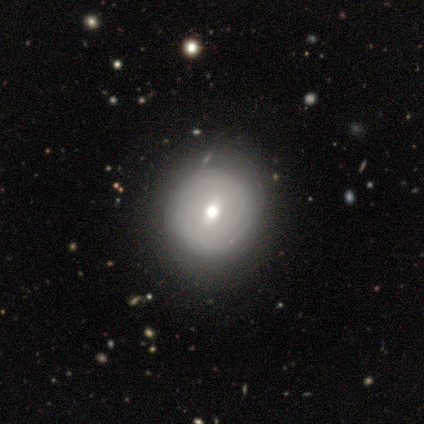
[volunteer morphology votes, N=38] This is possibly a featured or disk galaxy (58%). It is clearly not viewed edge-on (95%). Bar: possibly weak (57%). Spiral arm pattern: possibly yes (52%). Spiral arm count: clearly can't tell (82%). Spiral winding: clearly tight (82%). Central bulge: clearly moderate (81%). Merging: clearly none (84%).